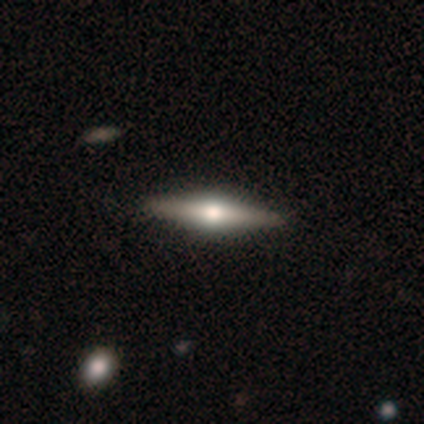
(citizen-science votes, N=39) Smooth or featured?
  - featured or disk: 87% *
  - smooth: 10%
  - star or artifact: 3%
Edge-on disk?
  - yes: 94% *
  - no: 6%
Edge-on bulge?
  - rounded: 94% *
  - boxy: 6%
  - none: 0%
Merging?
  - none: 61% *
  - minor disturbance: 3%
  - merger: 3%
  - major disturbance: 0%